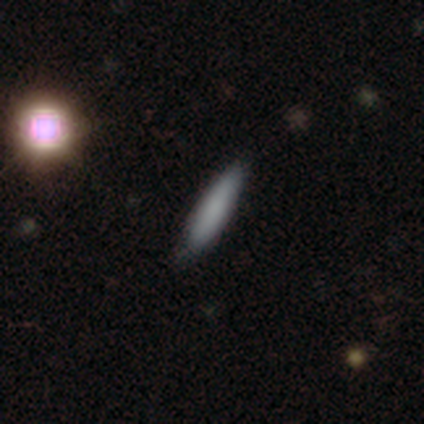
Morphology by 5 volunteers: smooth-or-featured: smooth: 80% | featured or disk: 20% | star or artifact: 0%
  how-rounded: cigar-shaped: 100% | round: 0% | in between: 0%
  merging: none: 80% | minor disturbance: 20% | major disturbance: 0% | merger: 0%